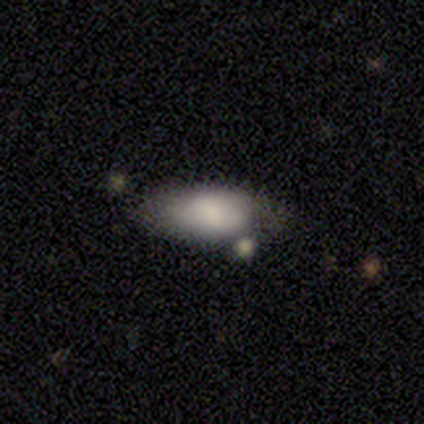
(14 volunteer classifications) Smooth or featured: smooth — 79% (star or artifact — 14%)
How rounded: in between — 91% (cigar-shaped — 9%)
Merging: none — 83% (minor disturbance — 17%)